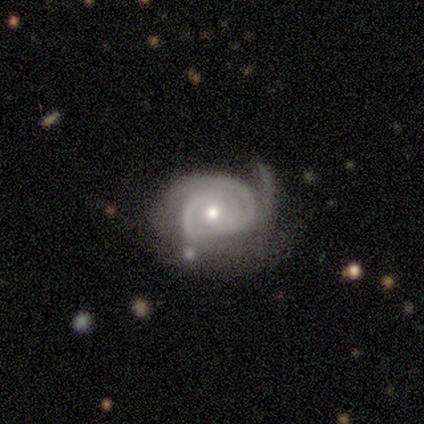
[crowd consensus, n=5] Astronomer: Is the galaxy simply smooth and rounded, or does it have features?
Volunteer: featured or disk — 100%.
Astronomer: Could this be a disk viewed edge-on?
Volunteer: no — 100%.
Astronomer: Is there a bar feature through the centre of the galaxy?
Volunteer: no — 100%.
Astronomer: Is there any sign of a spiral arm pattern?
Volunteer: yes — 100%.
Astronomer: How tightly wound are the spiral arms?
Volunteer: tight — 100%.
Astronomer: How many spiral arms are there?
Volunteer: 3 — 40% (runner-up: 1, 20%).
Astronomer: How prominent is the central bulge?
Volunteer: moderate — 60% (runner-up: small, 40%).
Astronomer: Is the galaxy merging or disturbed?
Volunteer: none — 40%, tied with minor disturbance at 40%.